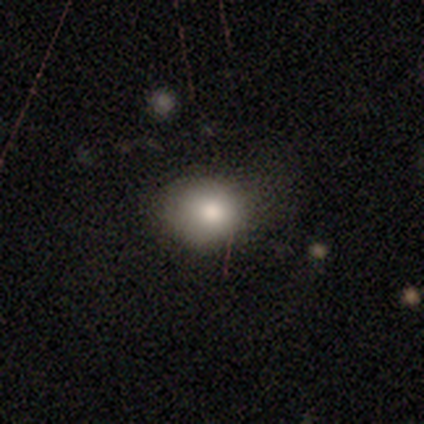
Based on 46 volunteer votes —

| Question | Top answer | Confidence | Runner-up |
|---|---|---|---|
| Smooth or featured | smooth | 78% | star or artifact (13%) |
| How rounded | round | 75% | in between (22%) |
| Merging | none | 55% | minor disturbance (32%) |